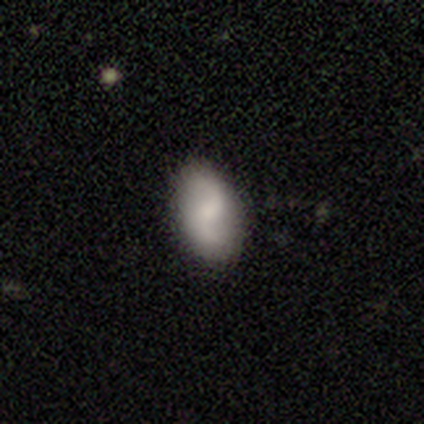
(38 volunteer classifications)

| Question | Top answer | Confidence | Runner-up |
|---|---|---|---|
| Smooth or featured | featured or disk | 53% | smooth (42%) |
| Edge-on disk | no | 100% | — |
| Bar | weak | 65% | strong (25%) |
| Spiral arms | yes | 95% | no (5%) |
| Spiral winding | loose | 84% | tight (11%) |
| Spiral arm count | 2 | 89% | 1 (11%) |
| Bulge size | small | 45% | moderate (25%) |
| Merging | none | 78% | minor disturbance (17%) |